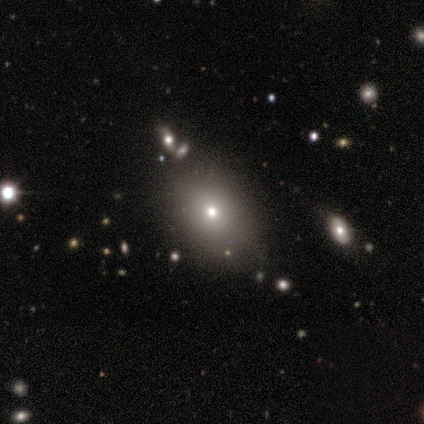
This is likely a smooth galaxy (67%). How rounded: likely in between (75%). Merging: marginally none (40%, tied with minor disturbance).